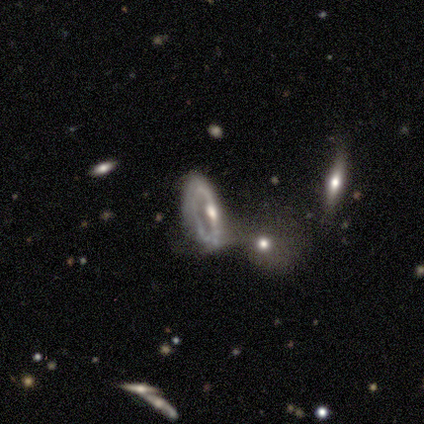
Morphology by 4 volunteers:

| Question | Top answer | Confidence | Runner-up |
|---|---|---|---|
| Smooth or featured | featured or disk | 75% | smooth (25%) |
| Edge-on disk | no | 100% | — |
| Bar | strong | 33% | tied: weak (33%), no (33%) |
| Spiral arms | yes | 67% | no (33%) |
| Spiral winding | medium | 50% | tied: loose (50%) |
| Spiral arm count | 2 | 50% | tied: can't tell (50%) |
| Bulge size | moderate | 100% | — |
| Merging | minor disturbance | 75% | merger (25%) |